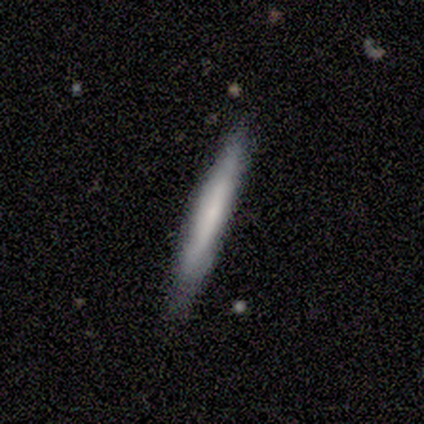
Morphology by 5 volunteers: smooth 60%, featured or disk 40%, star or artifact 0%. Down the decision tree: how rounded — cigar-shaped (100%); merging — none (80%).